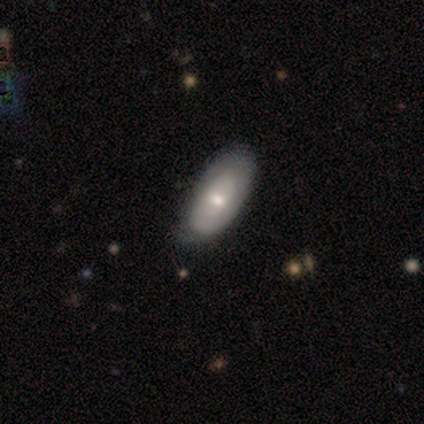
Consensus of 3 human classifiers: Overall: smooth (67%; featured or disk 33%). How rounded: in between (50%, tied with cigar-shaped). Merging: none (67%; minor disturbance 33%).